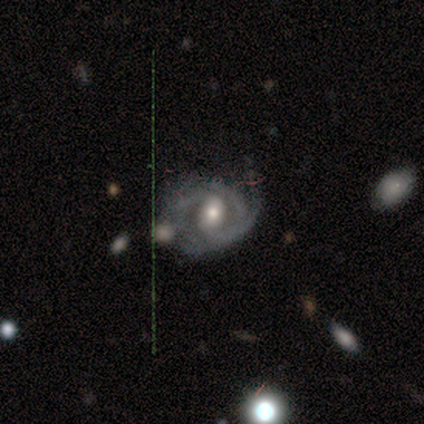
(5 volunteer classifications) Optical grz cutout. It shows a featured or disk galaxy (100%) with a weak bar (60%), 2 (60%) medium (40%, tied with loose) spiral arms (100%) and a moderate central bulge (80%). Merging: none (80%).